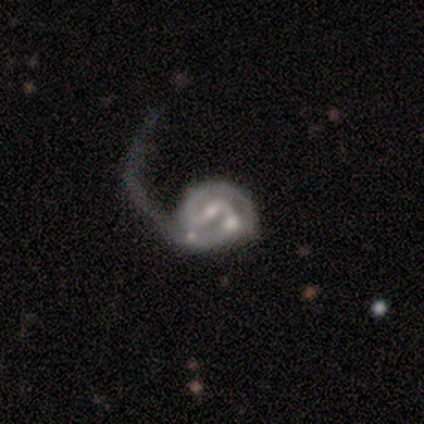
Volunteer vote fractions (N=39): A featured or disk galaxy (85%) with a weak bar (58%), 2 (47%) loose (38%) spiral arms (97%) and a small central bulge (58%).

Vote fractions:
- Smooth or featured? featured or disk: 85% / smooth: 8% / star or artifact: 8%
- Edge-on disk? no: 100% / yes: 0%
- Bar? weak: 58% / strong: 24% / no: 18%
- Spiral arms? yes: 97% / no: 3%
- Spiral winding? loose: 38% / medium: 34% / tight: 28%
- Spiral arm count? 2: 47% / 1: 38% / can't tell: 9% / 3: 3% / 4: 3% / more than 4: 0%
- Bulge size? small: 58% / moderate: 33% / none: 9% / dominant: 0% / large: 0%
- Merging? major disturbance: 47% / merger: 36% / minor disturbance: 14% / none: 3%